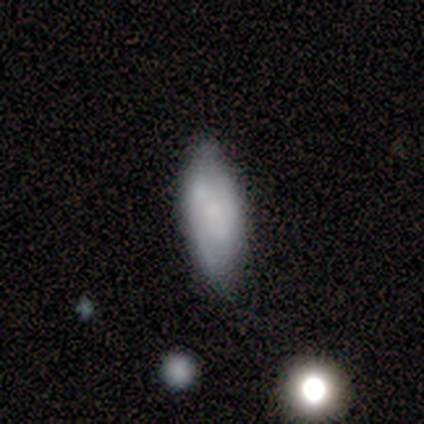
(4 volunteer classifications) This appears to be a smooth galaxy with no disk features (75%) that is in between round and cigar-shaped (67%). Merging: none (75%).